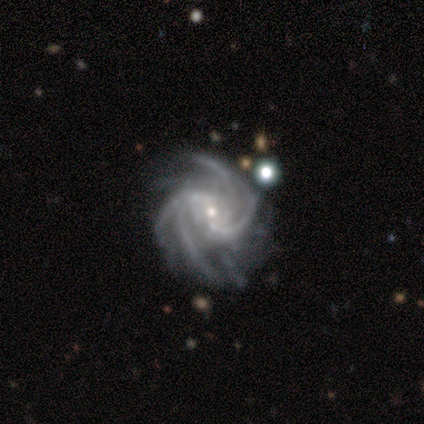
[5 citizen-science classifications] This appears to be a featured or disk galaxy (100%) with a weak bar (40%, tied with no), 4 (40%, tied with more than 4) medium (80%) spiral arms (100%) and a small central bulge (100%). Merging: none (80%).